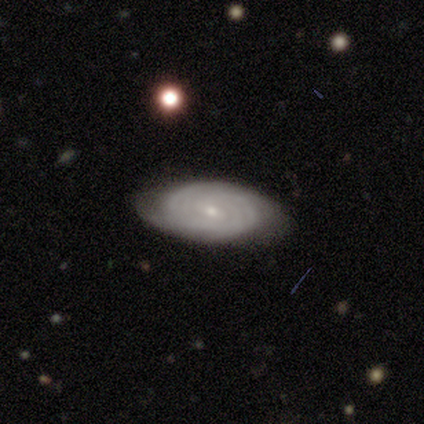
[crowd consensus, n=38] A featured or disk galaxy (82%) with no bar (60%), tight (79%) spiral arms (97%) and a small central bulge (87%). Merging: none (79%).